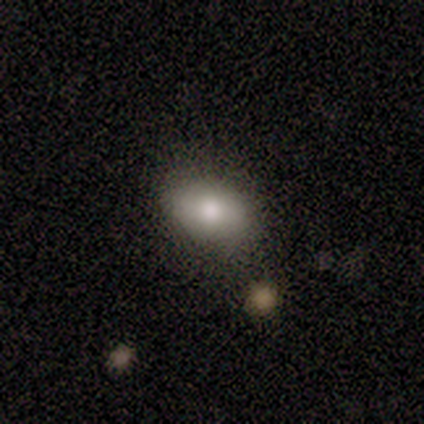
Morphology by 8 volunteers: A smooth galaxy with no disk features (88%) that is in between round and cigar-shaped (100%). Merging: none (57%).